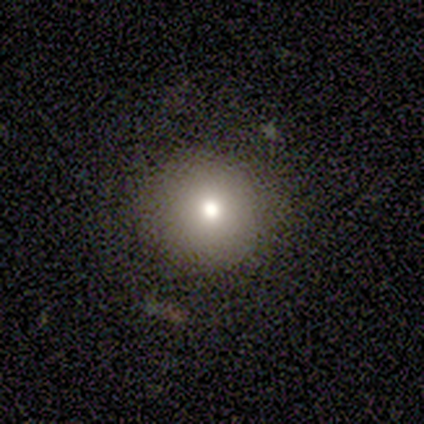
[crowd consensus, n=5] Morphology: type=smooth (60%); roundness=round (100%); merging=none (75%).